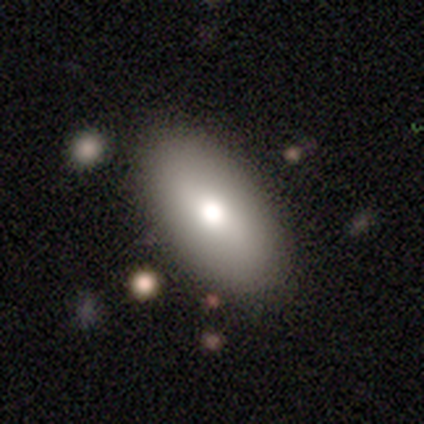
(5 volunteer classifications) Smooth or featured? 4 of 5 (80%) said smooth. How rounded? 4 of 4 (100%) said in between. Merging? 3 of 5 (60%) said none.